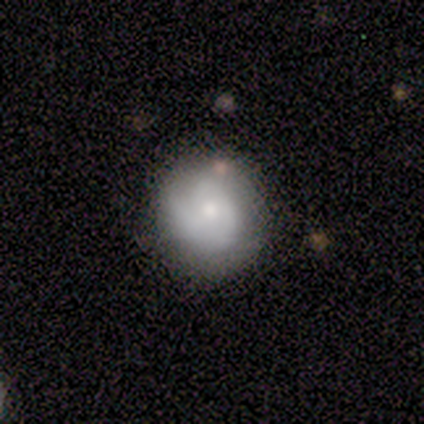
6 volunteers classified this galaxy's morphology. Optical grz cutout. It shows a smooth galaxy with no disk features (50%) that is round (100%). Merging: none (60%).